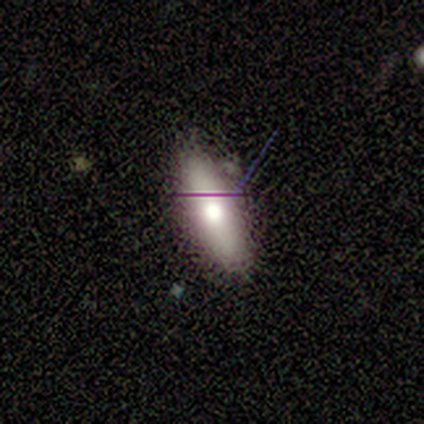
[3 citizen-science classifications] Smooth or featured? smooth (67%)
How rounded? in between (50%, tied with cigar-shaped)
Merging? none (67%)